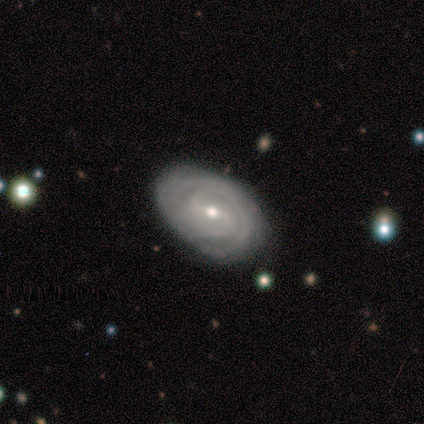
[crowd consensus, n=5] Smooth or featured? featured or disk (80%)
Edge-on disk? no (100%)
Bar? weak (75%)
Spiral arms? yes (75%)
Spiral winding? tight (100%)
Spiral arm count? 2 (33%, tied with 3 and can't tell)
Bulge size? moderate (50%, tied with small)
Merging? none (80%)